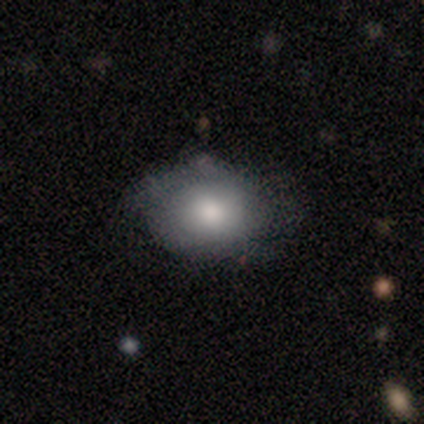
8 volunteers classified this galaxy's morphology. Smooth or featured? smooth (88%)
How rounded? in between (86%)
Merging? none (88%)